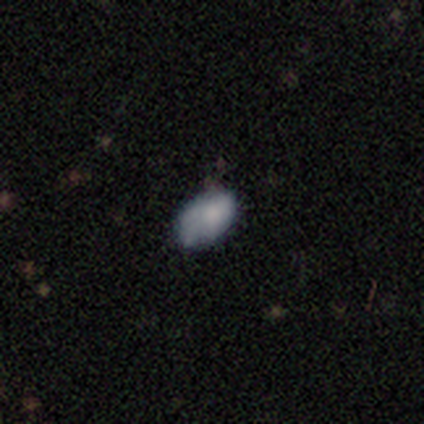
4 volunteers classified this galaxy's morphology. type=featured or disk (75%); edge-on=no (100%); bar=no (100%); spiral arms=no (100%); bulge=none (67%); merging=none (50%).